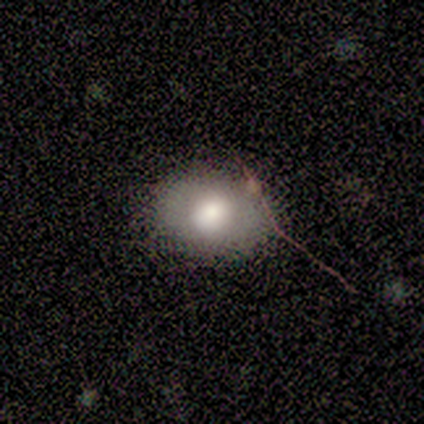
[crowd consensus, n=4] Volunteers were most divided on "how rounded" (2-way tie): round: 50%, in between: 50%, cigar-shaped: 0%. More confident: smooth or featured — smooth (100%); merging — none (75%).